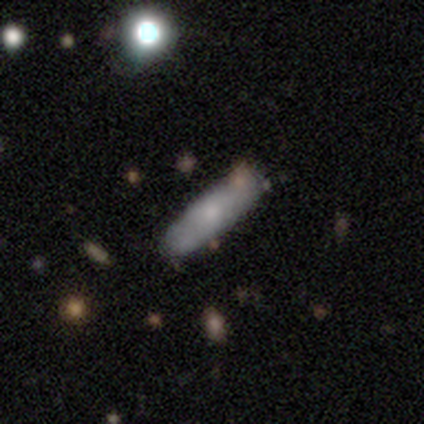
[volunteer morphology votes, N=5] This is likely a featured or disk galaxy (60%). It is likely viewed edge-on (67%). Edge-on bulge: clearly rounded (100%). Merging: likely none (60%).